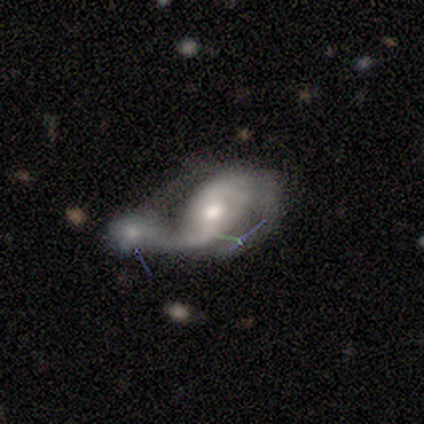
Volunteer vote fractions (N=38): Morphology: type=featured or disk (82%); edge-on=no (97%); bar=no (57%); spiral arms=yes (87%); winding=loose (58%); arm count=2 (85%); bulge=moderate (67%); merging=merger (83%).